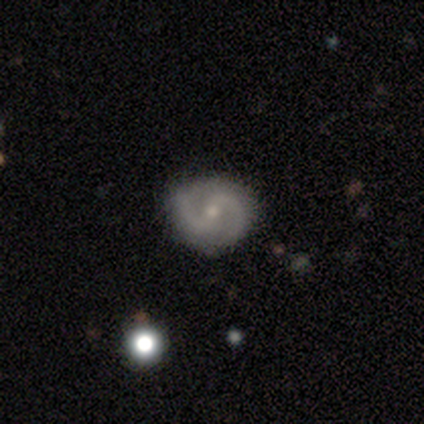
smooth_or_featured: featured or disk (p=1.00)
disk_edge_on: no (p=1.00)
bar: weak (p=0.80) [alt: strong p=0.20]
has_spiral_arms: yes (p=1.00)
spiral_winding: medium (p=0.60) [alt: tight p=0.40]
spiral_arm_count: 2 (p=1.00)
bulge_size: small (p=0.80) [alt: moderate p=0.20]
merging: none (p=1.00)